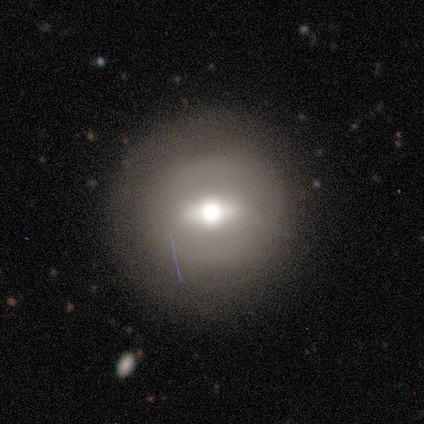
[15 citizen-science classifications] Q: Smooth or featured?
A: featured or disk (53%); runner-up: smooth (33%)
Q: Edge-on disk?
A: no (75%); runner-up: yes (25%)
Q: Bar?
A: strong (50%); tied with: weak (50%)
Q: Spiral arms?
A: no (100%)
Q: Bulge size?
A: moderate (83%); runner-up: large (17%)
Q: Merging?
A: none (85%); runner-up: minor disturbance (8%)